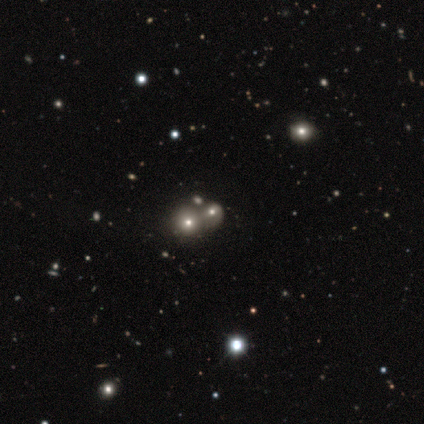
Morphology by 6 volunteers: smooth_or_featured: smooth (p=0.67) [alt: star or artifact p=0.33]
how_rounded: round (p=0.50) [tied with: in between p=0.50]
merging: merger (p=0.75) [alt: major disturbance p=0.25]